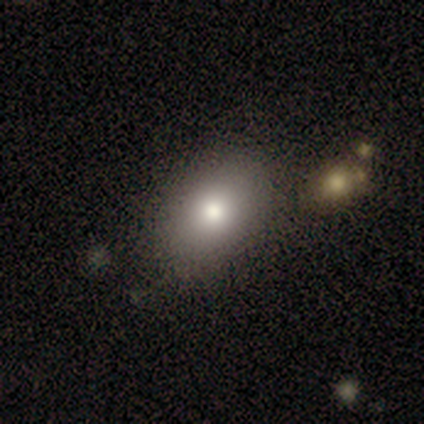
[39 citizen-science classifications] This appears to be a smooth galaxy with no disk features (92%) that is in between round and cigar-shaped (83%). Merging: none (76%).